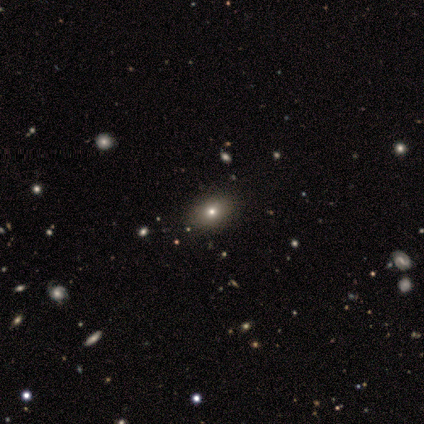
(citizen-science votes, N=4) This appears to be a smooth galaxy with no disk features (75%) that is in between round and cigar-shaped (67%). Merging: none (100%).